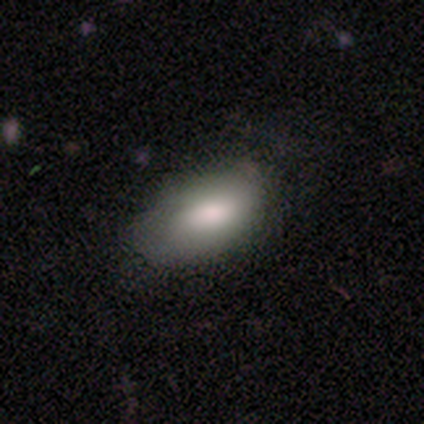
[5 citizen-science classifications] Smooth or featured? 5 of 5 (100%) said smooth. How rounded? 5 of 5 (100%) said in between. Merging? 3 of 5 (60%) said none.